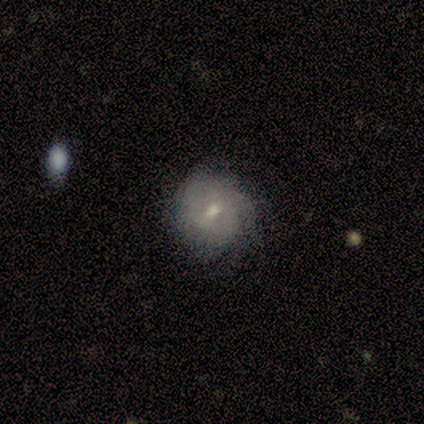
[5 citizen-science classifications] Q: Smooth or featured?
A: smooth (60%); runner-up: featured or disk (40%)
Q: How rounded?
A: round (100%)
Q: Merging?
A: none (100%)